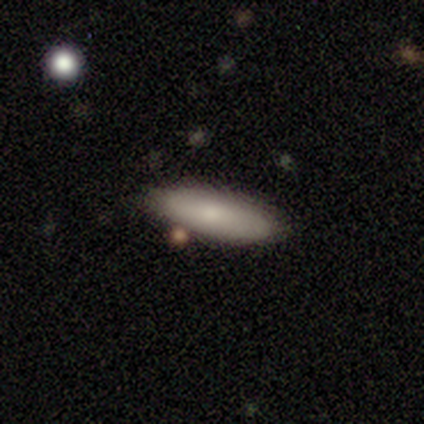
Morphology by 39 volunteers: This is likely a smooth galaxy (72%). How rounded: possibly cigar-shaped (54%). Merging: clearly none (83%).